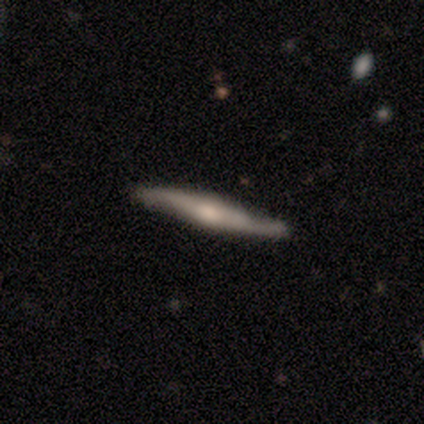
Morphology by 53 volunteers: Smooth or featured: featured or disk — 77% (smooth — 19%)
Edge-on disk: yes — 78% (no — 22%)
Edge-on bulge: rounded — 78% (none — 16%)
Merging: none — 76% (minor disturbance — 22%)